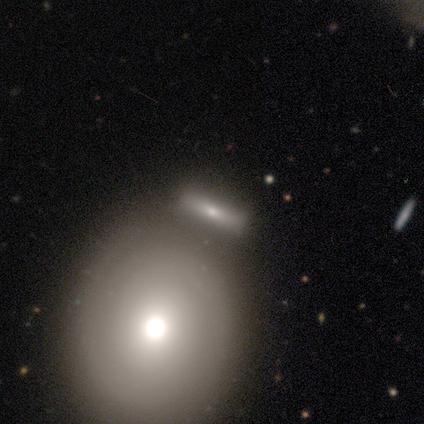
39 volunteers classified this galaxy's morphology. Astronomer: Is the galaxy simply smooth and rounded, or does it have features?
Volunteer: smooth — 67%.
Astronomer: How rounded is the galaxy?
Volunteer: round — 62%.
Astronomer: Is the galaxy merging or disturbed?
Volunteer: none — 46% (runner-up: merger, 37%).